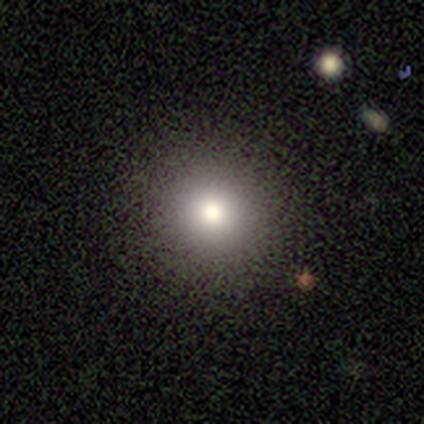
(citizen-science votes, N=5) Morphology: type=smooth (80%); roundness=round (100%); merging=none (75%).